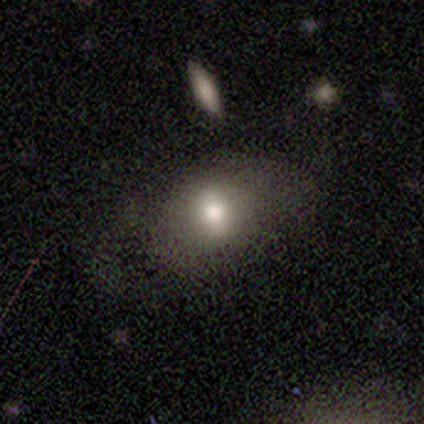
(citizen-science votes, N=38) smooth 58%, featured or disk 34%, star or artifact 8%. Down the decision tree: how rounded — in between (73%); merging — none (60%).